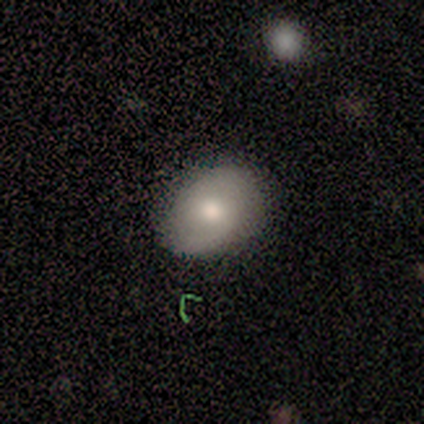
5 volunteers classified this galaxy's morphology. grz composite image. It shows a smooth galaxy with no disk features (80%) that is in between round and cigar-shaped (100%). Merging: none (80%).